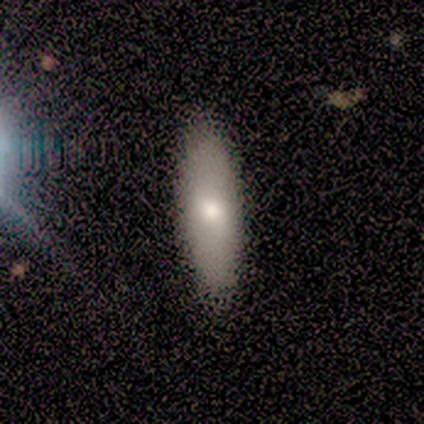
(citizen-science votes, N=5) Smooth or featured? 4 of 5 (80%) said smooth. How rounded? 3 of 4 (75%) said in between. Merging? 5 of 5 (100%) said none.